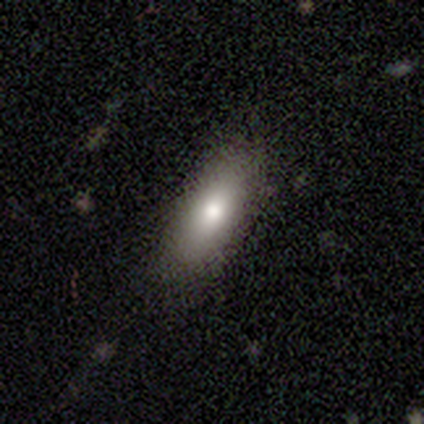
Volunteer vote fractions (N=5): A featured or disk galaxy (60%) with a strong bar (50%, tied with no), no spiral arms (100%) and a large central bulge (50%, tied with moderate).

Vote fractions:
- Smooth or featured? featured or disk: 60% / smooth: 40% / star or artifact: 0%
- Edge-on disk? no: 67% / yes: 33%
- Bar? strong: 50% (tied) / no: 50% (tied) / weak: 0%
- Spiral arms? no: 100% / yes: 0%
- Bulge size? large: 50% (tied) / moderate: 50% (tied) / dominant: 0% / small: 0% / none: 0%
- Merging? none: 80% / major disturbance: 20% / minor disturbance: 0% / merger: 0%